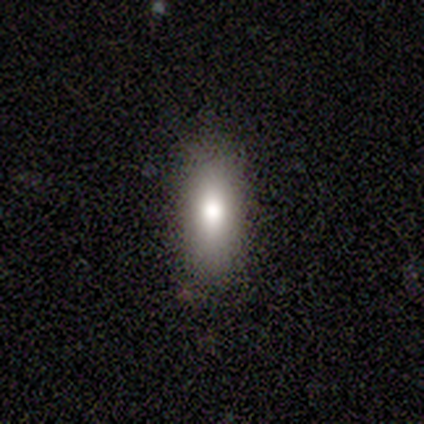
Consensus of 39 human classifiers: smooth-or-featured: smooth: 82% | star or artifact: 13% | featured or disk: 5%
  how-rounded: in between: 81% | cigar-shaped: 19% | round: 0%
  merging: none: 79% | minor disturbance: 18% | major disturbance: 3% | merger: 0%